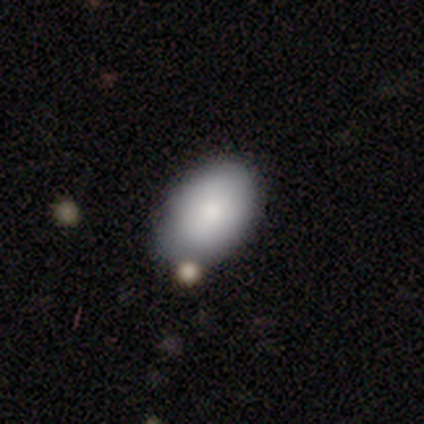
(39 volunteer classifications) Smooth or featured?
  - smooth: 87% *
  - featured or disk: 8%
  - star or artifact: 5%
How rounded?
  - in between: 97% *
  - round: 3%
  - cigar-shaped: 0%
Merging?
  - none: 65% *
  - minor disturbance: 22%
  - merger: 11%
  - major disturbance: 3%